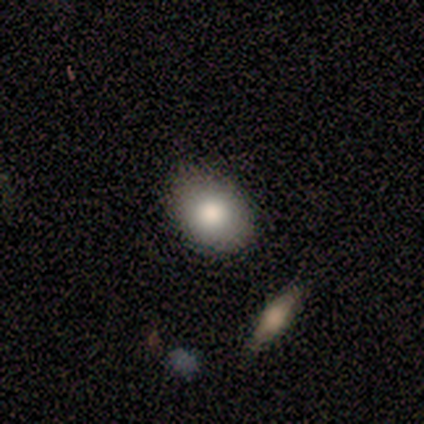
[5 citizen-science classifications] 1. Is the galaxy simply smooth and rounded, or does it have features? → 80% smooth, 20% featured or disk, 0% star or artifact.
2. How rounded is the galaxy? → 75% in between, 25% round, 0% cigar-shaped.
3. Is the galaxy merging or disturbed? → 80% none, 20% minor disturbance, 0% major disturbance, 0% merger.